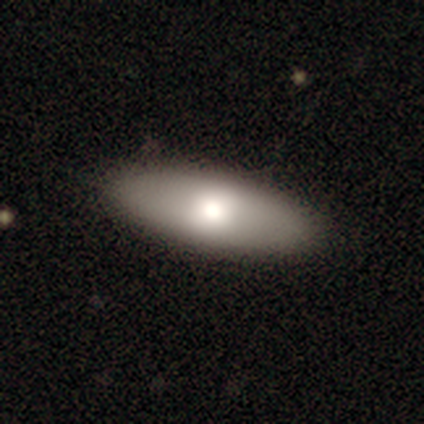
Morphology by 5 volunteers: A smooth galaxy with no disk features (60%) that is in between round and cigar-shaped (100%).

Vote fractions:
- Smooth or featured? smooth: 60% / featured or disk: 20% / star or artifact: 20%
- How rounded? in between: 100% / round: 0% / cigar-shaped: 0%
- Merging? none: 100% / minor disturbance: 0% / major disturbance: 0% / merger: 0%